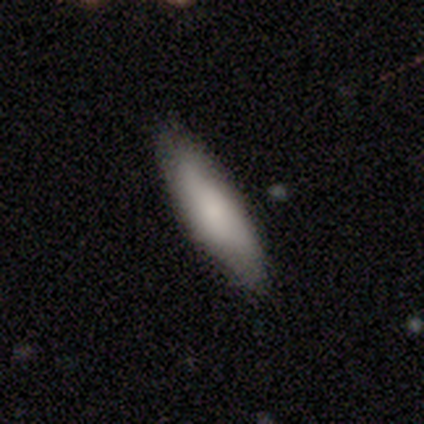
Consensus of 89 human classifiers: Smooth or featured: smooth — 79% (featured or disk — 19%)
How rounded: cigar-shaped — 61% (in between — 37%)
Merging: none — 80% (minor disturbance — 13%)